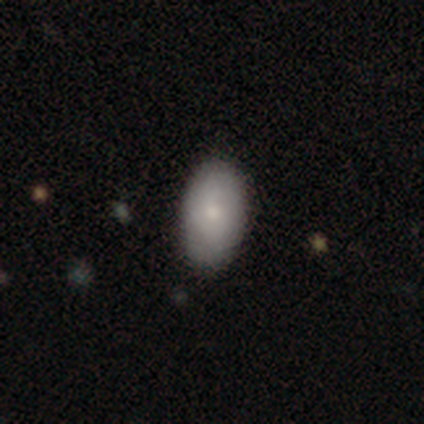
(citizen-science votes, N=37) Smooth or featured? 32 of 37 (86%) said smooth. How rounded? 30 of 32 (94%) said in between. Merging? 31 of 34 (91%) said none.